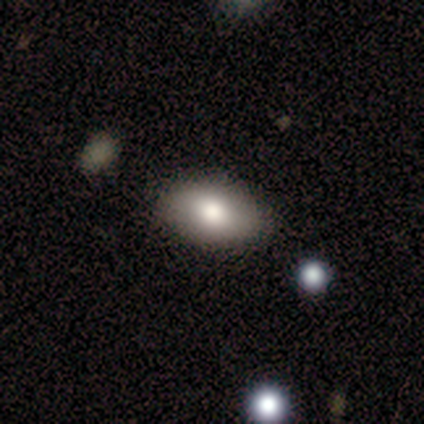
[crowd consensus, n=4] This is clearly a smooth galaxy (100%). How rounded: likely in between (75%). Merging: clearly none (100%).